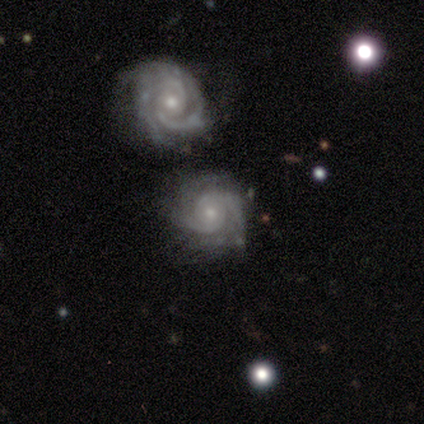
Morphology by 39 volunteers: Smooth or featured: featured or disk — 92% (smooth — 5%)
Edge-on disk: no — 97% (yes — 3%)
Bar: no — 86% (weak — 9%)
Spiral arms: yes — 100%
Spiral winding: tight — 69% (medium — 26%)
Spiral arm count: 2 — 57% (3 — 26%)
Bulge size: small — 63% (moderate — 29%)
Merging: none — 58% (minor disturbance — 18%)